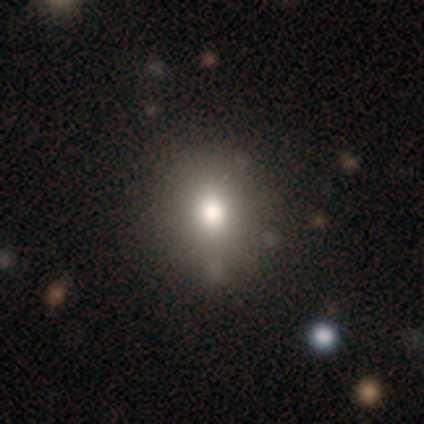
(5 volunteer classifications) Morphology: type=smooth (100%); roundness=round (80%); merging=none (100%).